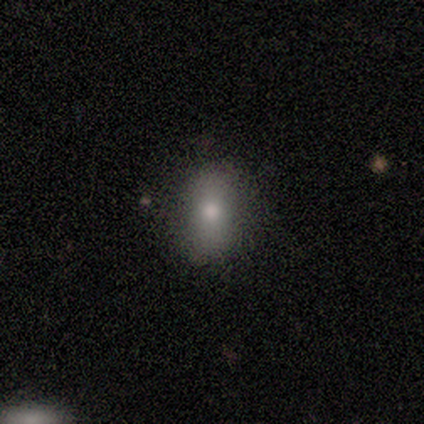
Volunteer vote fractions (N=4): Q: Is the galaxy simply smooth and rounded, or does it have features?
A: smooth — 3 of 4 (75%).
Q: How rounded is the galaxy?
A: in between — 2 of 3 (67%).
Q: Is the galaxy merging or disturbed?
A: none — 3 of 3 (100%).